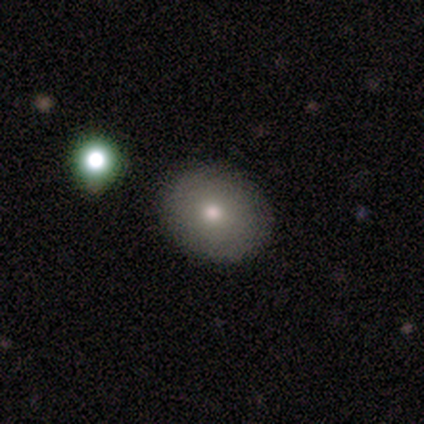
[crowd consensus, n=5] Smooth or featured? smooth (80%)
How rounded? round (75%)
Merging? none (100%)